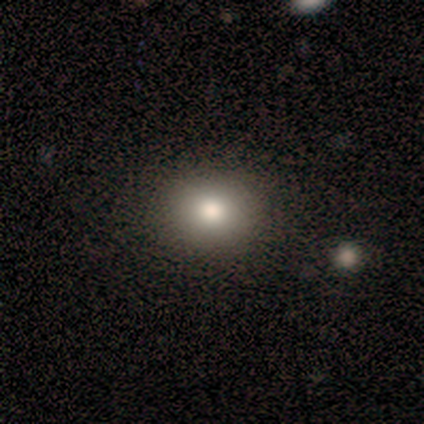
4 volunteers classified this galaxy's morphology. Smooth or featured?
  - smooth: 100% *
  - featured or disk: 0%
  - star or artifact: 0%
How rounded?
  - round: 75% *
  - in between: 25%
  - cigar-shaped: 0%
Merging?
  - none: 75% *
  - minor disturbance: 25%
  - major disturbance: 0%
  - merger: 0%